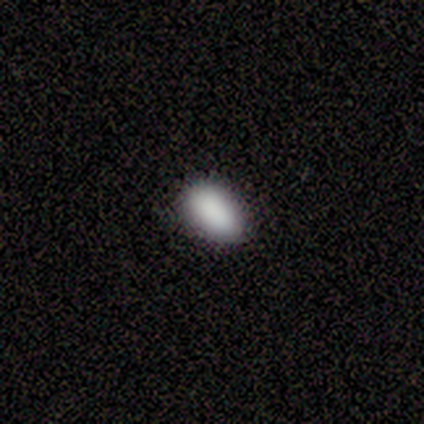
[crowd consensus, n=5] Smooth or featured: smooth — 60% (star or artifact — 40%)
How rounded: in between — 100%
Merging: minor disturbance — 67% (none — 33%)